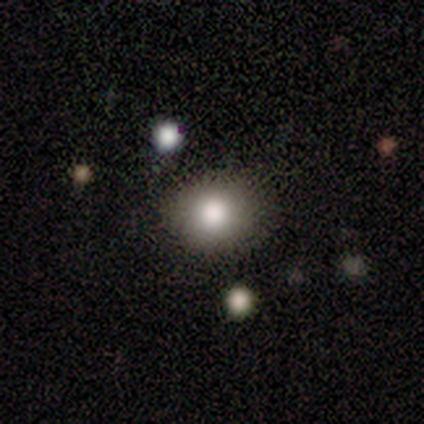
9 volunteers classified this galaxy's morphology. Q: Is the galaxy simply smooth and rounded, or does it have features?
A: smooth — 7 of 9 (78%).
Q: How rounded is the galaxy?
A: round — 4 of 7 (57%).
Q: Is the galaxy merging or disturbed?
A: none — 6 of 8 (75%).